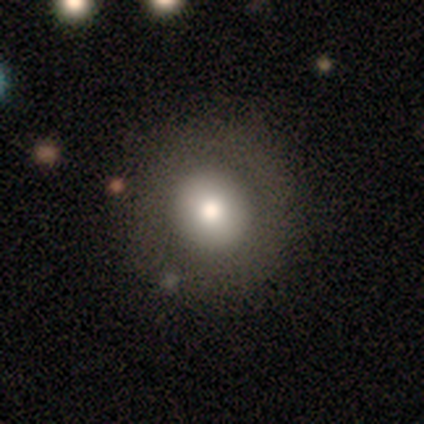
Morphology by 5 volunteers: Volunteers were most divided on "bulge size" (3-way tie): dominant: 33%, large: 33%, moderate: 33%, small: 0%, none: 0%. More confident: edge-on disk — no (100%); bar — no (67%); spiral arms — no (67%); smooth or featured — featured or disk (60%); merging — none (60%).